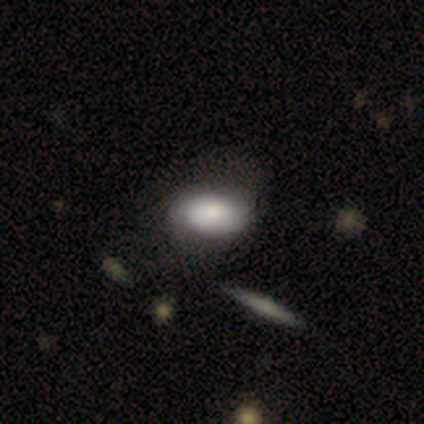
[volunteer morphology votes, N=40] Q: Smooth or featured?
A: smooth (82%); runner-up: featured or disk (15%)
Q: How rounded?
A: in between (94%); runner-up: round (6%)
Q: Merging?
A: none (46%); runner-up: minor disturbance (13%)